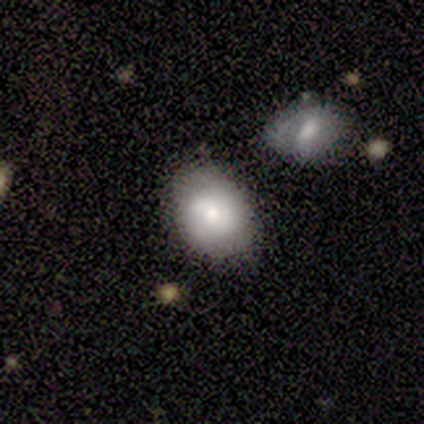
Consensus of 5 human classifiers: Morphology: type=smooth (60%); roundness=in between (100%); merging=none (40%, tied with merger).